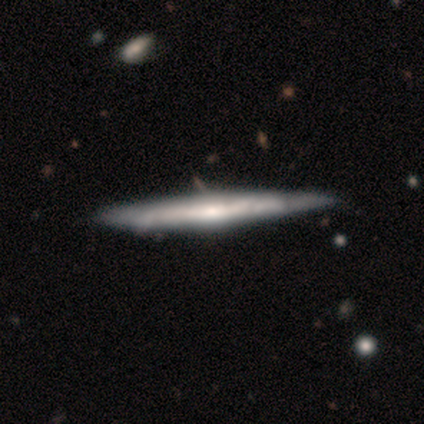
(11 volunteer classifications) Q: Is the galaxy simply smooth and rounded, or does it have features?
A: featured or disk — 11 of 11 (100%).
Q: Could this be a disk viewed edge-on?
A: yes — 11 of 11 (100%).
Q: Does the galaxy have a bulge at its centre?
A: rounded — 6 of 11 (55%).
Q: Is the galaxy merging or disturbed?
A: none — 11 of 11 (100%).